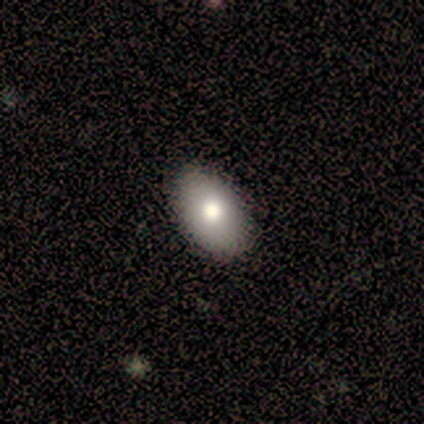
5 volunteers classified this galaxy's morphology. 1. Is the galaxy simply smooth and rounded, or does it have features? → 80% smooth, 20% star or artifact, 0% featured or disk.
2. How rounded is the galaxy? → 100% in between, 0% round, 0% cigar-shaped.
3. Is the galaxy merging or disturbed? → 100% none, 0% minor disturbance, 0% major disturbance, 0% merger.